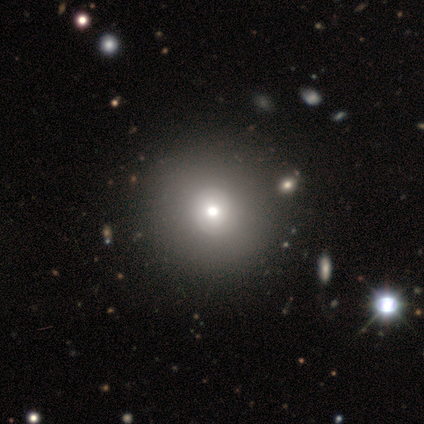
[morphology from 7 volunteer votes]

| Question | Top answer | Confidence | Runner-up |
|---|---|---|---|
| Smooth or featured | smooth | 43% | featured or disk (29%) |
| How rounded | round | 100% | — |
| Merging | none | 80% | major disturbance (20%) |